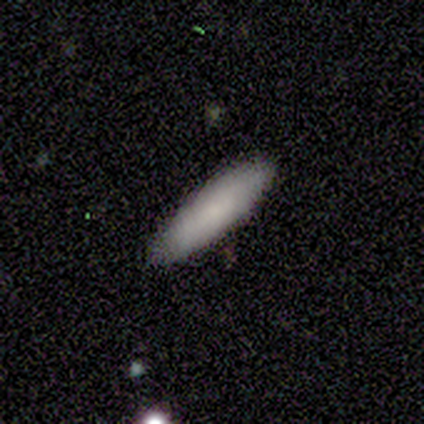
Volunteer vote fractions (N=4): smooth 75%, featured or disk 25%, star or artifact 0%. Down the decision tree: how rounded — cigar-shaped (67%); merging — none (50%).